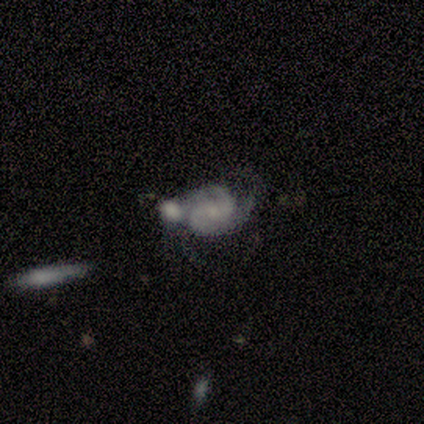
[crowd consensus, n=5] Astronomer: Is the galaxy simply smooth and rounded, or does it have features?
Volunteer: featured or disk — 100%.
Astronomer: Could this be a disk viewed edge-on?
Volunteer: no — 100%.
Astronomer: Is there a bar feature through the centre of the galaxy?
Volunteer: weak — 40%, tied with no at 40%.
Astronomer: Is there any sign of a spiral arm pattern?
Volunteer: yes — 80%.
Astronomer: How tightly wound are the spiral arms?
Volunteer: medium — 75%.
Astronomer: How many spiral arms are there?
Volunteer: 2 — 75%.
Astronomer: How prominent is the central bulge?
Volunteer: small — 60% (runner-up: moderate, 40%).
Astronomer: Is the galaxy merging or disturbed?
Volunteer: none — 60% (runner-up: merger, 40%).